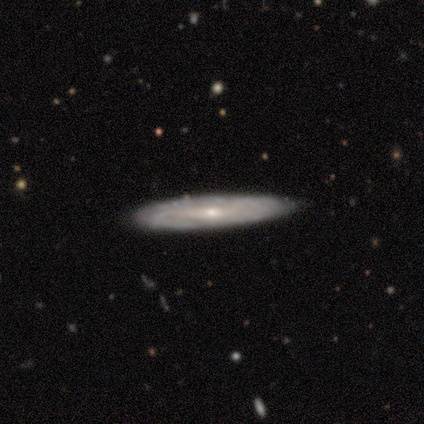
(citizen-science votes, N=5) Smooth or featured? 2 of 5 (40%, tied with star or artifact) said smooth. How rounded? 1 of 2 (50%, tied with cigar-shaped) said in between. Merging? 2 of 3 (67%) said none.